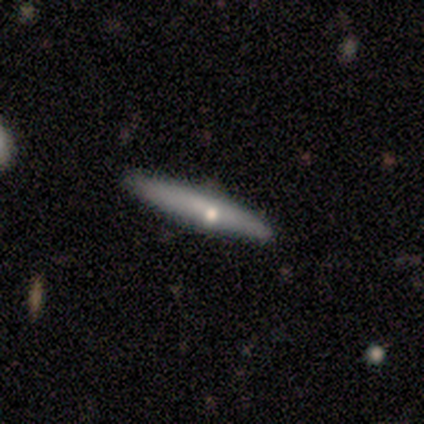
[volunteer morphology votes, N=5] This is likely a featured or disk galaxy (60%). It is clearly viewed edge-on (100%). Edge-on bulge: likely rounded (67%). Merging: clearly none (100%).